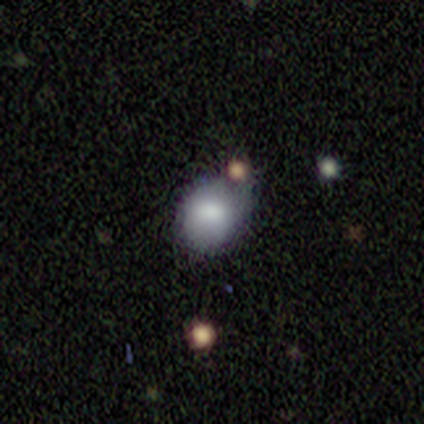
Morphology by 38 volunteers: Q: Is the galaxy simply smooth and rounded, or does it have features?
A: smooth — 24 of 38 (63%).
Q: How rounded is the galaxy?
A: round — 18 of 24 (75%).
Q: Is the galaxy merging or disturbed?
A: none — 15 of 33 (45%).